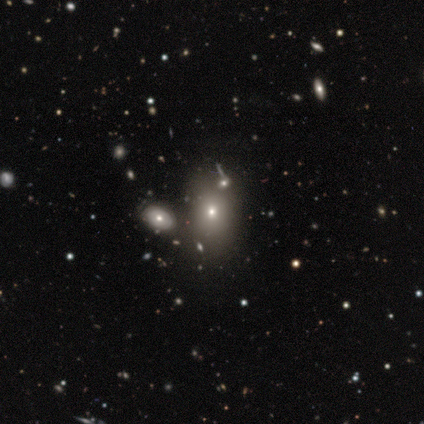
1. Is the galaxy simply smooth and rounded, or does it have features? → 80% smooth, 20% featured or disk, 0% star or artifact.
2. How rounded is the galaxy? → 75% in between, 25% round, 0% cigar-shaped.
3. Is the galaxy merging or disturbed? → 60% none, 40% merger, 0% minor disturbance, 0% major disturbance.